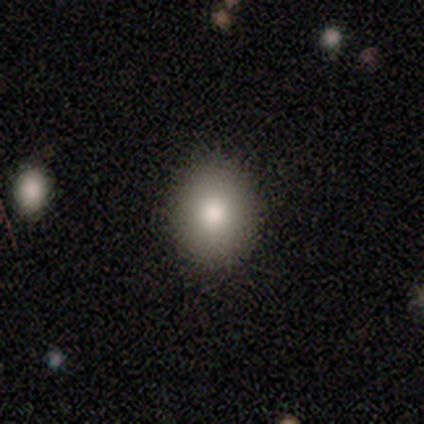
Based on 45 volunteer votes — A smooth galaxy with no disk features (87%) that is round (72%).

Vote fractions:
- Smooth or featured? smooth: 87% / star or artifact: 11% / featured or disk: 2%
- How rounded? round: 72% / in between: 28% / cigar-shaped: 0%
- Merging? none: 90% / minor disturbance: 8% / major disturbance: 2% / merger: 0%